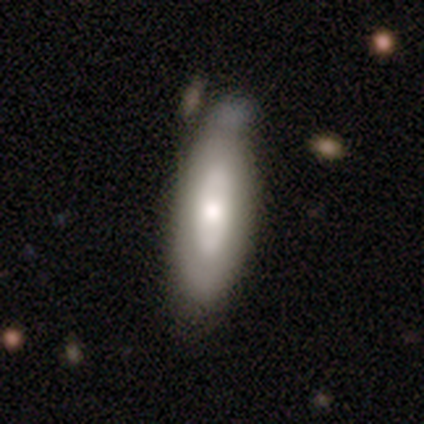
A smooth galaxy with no disk features (52%) that is in between round and cigar-shaped (52%).

Vote fractions:
- Smooth or featured? smooth: 52% / featured or disk: 48% / star or artifact: 0%
- How rounded? in between: 52% / cigar-shaped: 48% / round: 0%
- Merging? none: 48% / minor disturbance: 40% / major disturbance: 8% / merger: 5%